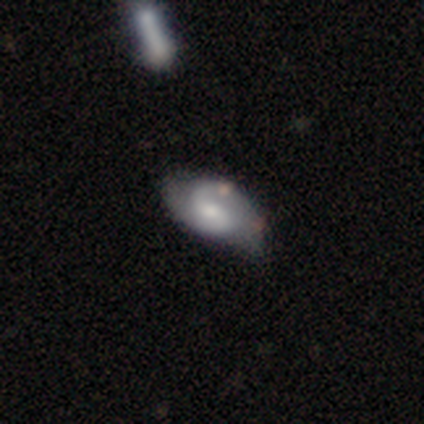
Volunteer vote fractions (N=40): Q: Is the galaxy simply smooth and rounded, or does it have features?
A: featured or disk — 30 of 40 (75%).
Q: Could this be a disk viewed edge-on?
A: no — 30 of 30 (100%).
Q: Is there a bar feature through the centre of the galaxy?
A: no — 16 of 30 (53%).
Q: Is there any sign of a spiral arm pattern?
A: yes — 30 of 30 (100%).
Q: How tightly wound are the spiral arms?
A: medium — 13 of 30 (43%).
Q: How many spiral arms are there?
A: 2 — 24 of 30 (80%).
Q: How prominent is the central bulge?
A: moderate — 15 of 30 (50%).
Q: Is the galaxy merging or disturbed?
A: none — 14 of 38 (37%).